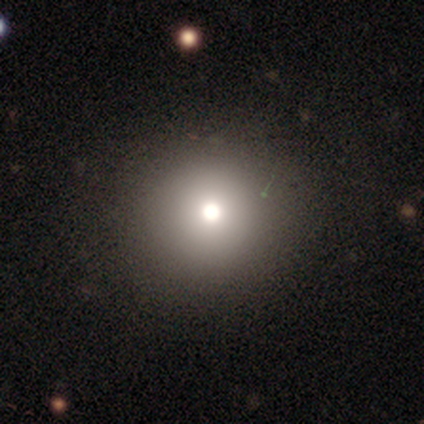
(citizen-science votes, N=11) Volunteers were most divided on "smooth or featured": smooth: 73%, star or artifact: 18%, featured or disk: 9%. More confident: merging — none (89%); how rounded — round (88%).